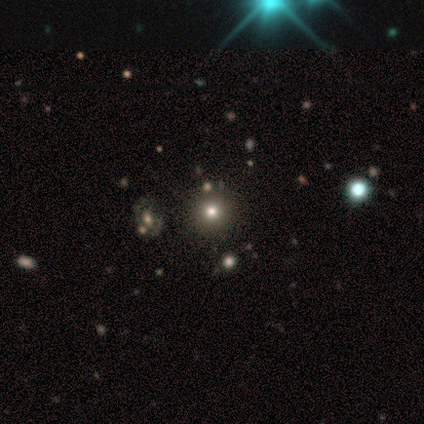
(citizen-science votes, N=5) Smooth or featured? smooth (60%)
How rounded? round (100%)
Merging? none (67%)